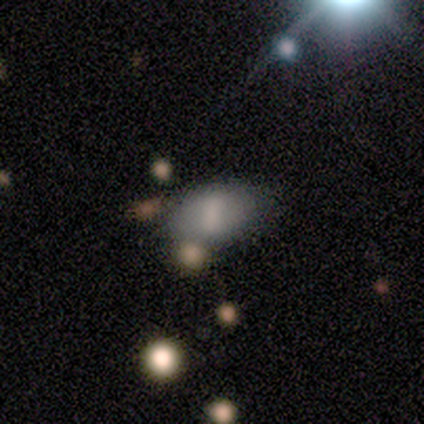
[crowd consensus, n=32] This appears to be a smooth galaxy with no disk features (50%) that is in between round and cigar-shaped (100%). Merging: none (65%).